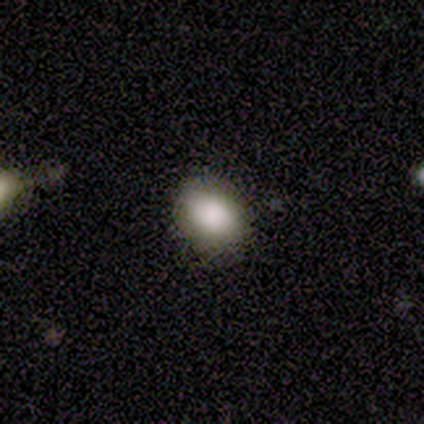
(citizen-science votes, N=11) smooth 100%, featured or disk 0%, star or artifact 0%. Down the decision tree: how rounded — in between (64%); merging — none (73%).